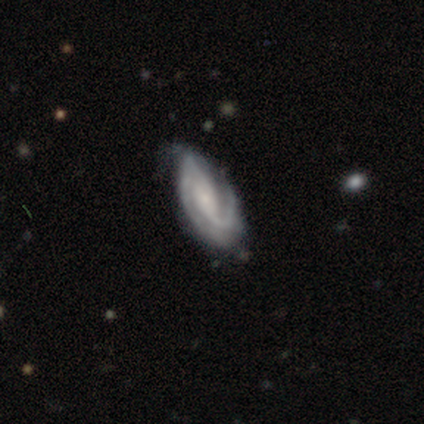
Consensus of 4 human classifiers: This is likely a featured or disk galaxy (75%). It is clearly not viewed edge-on (100%). Bar: likely no (67%). Spiral arm pattern: clearly yes (100%). Spiral arm count: clearly 2 (100%). Spiral winding: marginally tight (33%, tied with medium and loose). Central bulge: marginally large (33%, tied with moderate and small). Merging: likely none (75%).